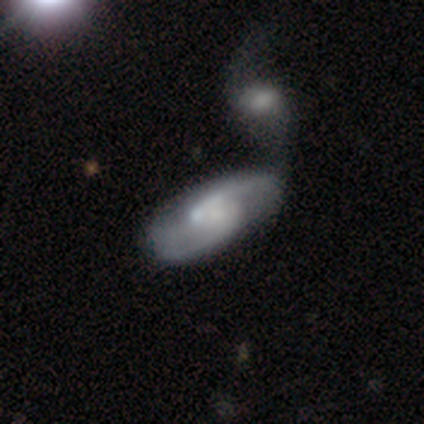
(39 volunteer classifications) This is clearly a featured or disk galaxy (82%). It is clearly not viewed edge-on (97%). Bar: likely no (65%). Spiral arm pattern: clearly yes (90%). Spiral arm count: likely 2 (79%). Spiral winding: possibly loose (46%). Central bulge: possibly small (52%). Merging: marginally merger (36%).